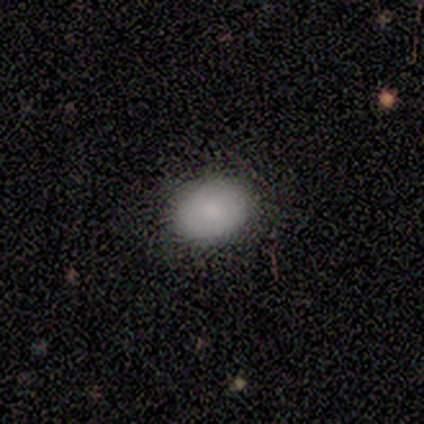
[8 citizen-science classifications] Overall: smooth (100%). How rounded: in between (75%). Merging: none (75%).